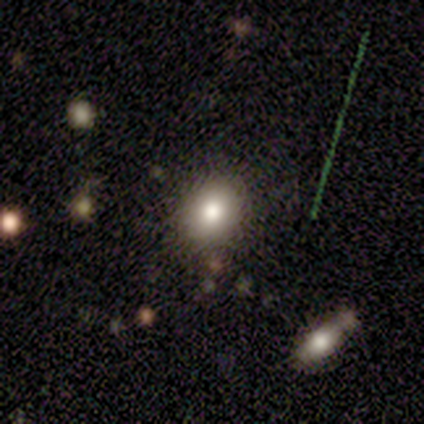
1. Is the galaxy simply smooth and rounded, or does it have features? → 75% smooth, 25% star or artifact, 0% featured or disk.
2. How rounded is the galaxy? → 67% in between, 33% cigar-shaped, 0% round.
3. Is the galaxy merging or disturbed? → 33% none (tied), 33% minor disturbance (tied), 33% merger (tied), 0% major disturbance.